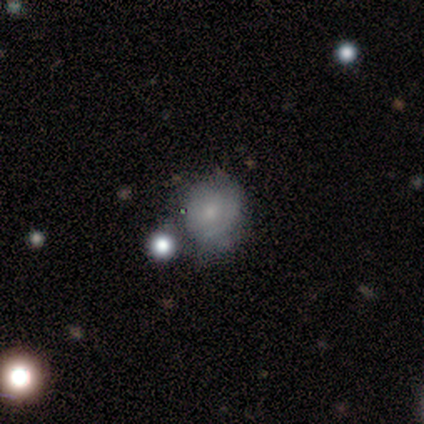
Morphology: type=smooth (67%); roundness=round (83%); merging=none (71%).